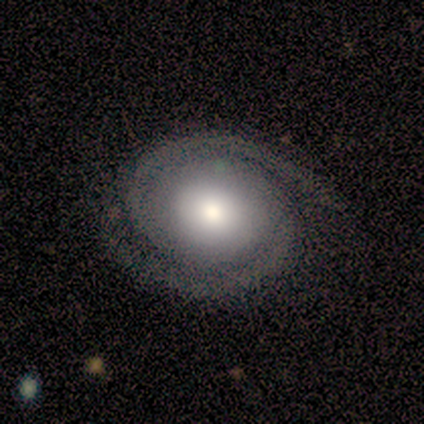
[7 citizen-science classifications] Smooth or featured?
  - featured or disk: 71% *
  - smooth: 14%
  - star or artifact: 14%
Edge-on disk?
  - no: 100% *
  - yes: 0%
Bar?
  - no: 60% *
  - strong: 40%
  - weak: 0%
Spiral arms?
  - yes: 100% *
  - no: 0%
Spiral winding?
  - tight: 60% *
  - medium: 40%
  - loose: 0%
Spiral arm count?
  - 2: 100% *
  - 1: 0%
  - 3: 0%
  - 4: 0%
  - more than 4: 0%
  - can't tell: 0%
Bulge size?
  - moderate: 60% *
  - large: 40%
  - dominant: 0%
  - small: 0%
  - none: 0%
Merging?
  - none: 83% *
  - minor disturbance: 17%
  - major disturbance: 0%
  - merger: 0%